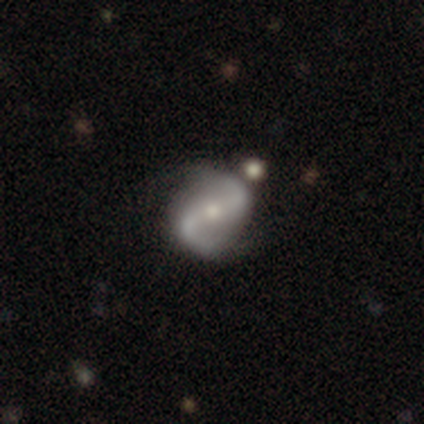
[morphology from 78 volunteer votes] smooth_or_featured: featured or disk (p=0.91) [alt: smooth p=0.05]
disk_edge_on: no (p=1.00)
bar: weak (p=0.37) [alt: no p=0.34]
has_spiral_arms: yes (p=0.97) [alt: no p=0.03]
spiral_winding: loose (p=0.62) [alt: medium p=0.33]
spiral_arm_count: 2 (p=0.96) [alt: 1 p=0.03]
bulge_size: moderate (p=0.48) [tied with: small p=0.48]
merging: none (p=0.49) [alt: merger p=0.16]